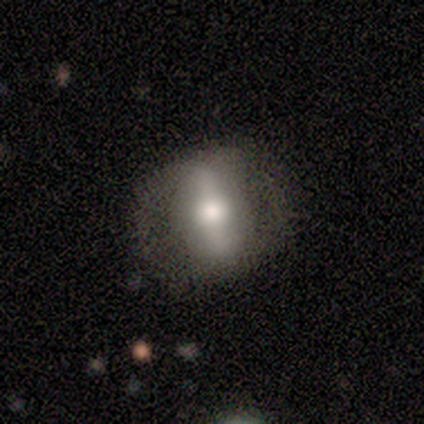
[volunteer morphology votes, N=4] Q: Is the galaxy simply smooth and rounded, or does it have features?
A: smooth — 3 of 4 (75%).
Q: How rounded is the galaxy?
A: cigar-shaped — 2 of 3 (67%).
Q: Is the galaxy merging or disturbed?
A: none — 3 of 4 (75%).